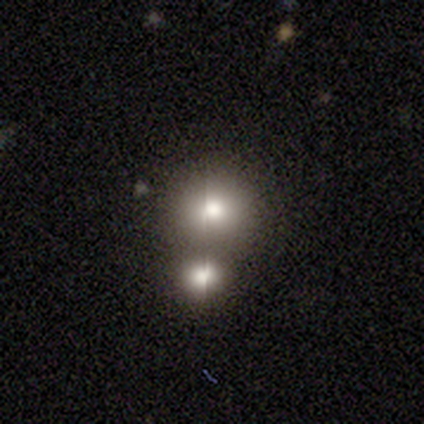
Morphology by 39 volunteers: This appears to be a smooth galaxy with no disk features (56%) that is round (91%). Merging: merger (54%).